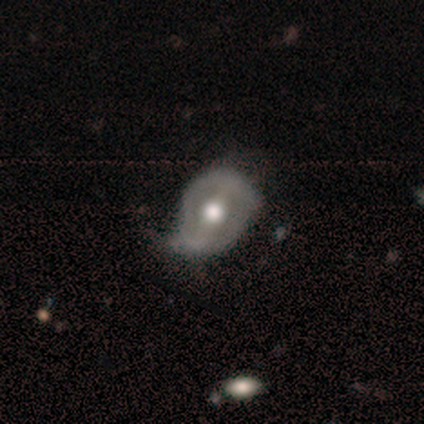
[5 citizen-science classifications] Morphology: type=featured or disk (60%); edge-on=no (67%); bar=strong (100%); spiral arms=yes (50%, tied with no); winding=loose (100%); arm count=1 (100%); bulge=moderate (100%); merging=none (100%).